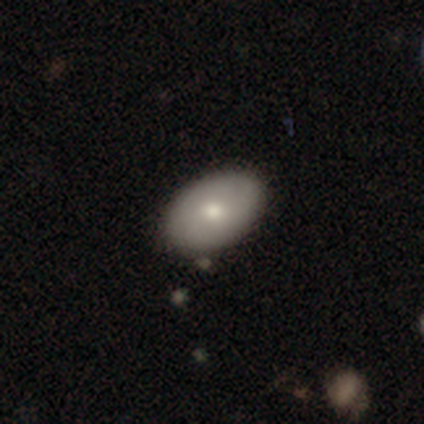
Morphology: type=smooth (74%); roundness=in between (94%); merging=none (91%).